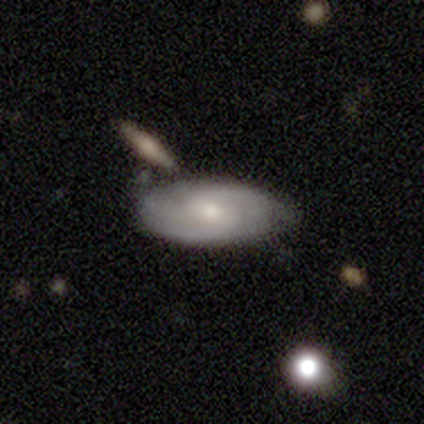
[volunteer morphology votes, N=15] A featured or disk galaxy (80%) with a weak bar (50%, tied with no), 3 (80%) tight (80%) spiral arms (100%) and a moderate central bulge (50%, tied with small).

Vote fractions:
- Smooth or featured? featured or disk: 80% / smooth: 20% / star or artifact: 0%
- Edge-on disk? no: 83% / yes: 17%
- Bar? weak: 50% (tied) / no: 50% (tied) / strong: 0%
- Spiral arms? yes: 100% / no: 0%
- Spiral winding? tight: 80% / medium: 20% / loose: 0%
- Spiral arm count? 3: 80% / 2: 20% / 1: 0% / 4: 0% / more than 4: 0% / can't tell: 0%
- Bulge size? moderate: 50% (tied) / small: 50% (tied) / dominant: 0% / large: 0% / none: 0%
- Merging? none: 67% / minor disturbance: 20% / merger: 13% / major disturbance: 0%